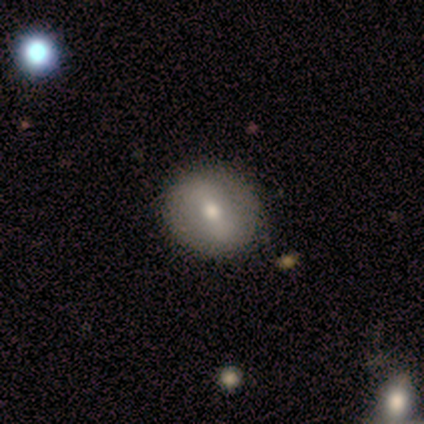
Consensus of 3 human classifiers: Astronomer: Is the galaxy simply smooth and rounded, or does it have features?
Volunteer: smooth — 67%.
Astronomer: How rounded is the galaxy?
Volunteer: round — 100%.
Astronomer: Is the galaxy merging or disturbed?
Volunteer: none — 100%.